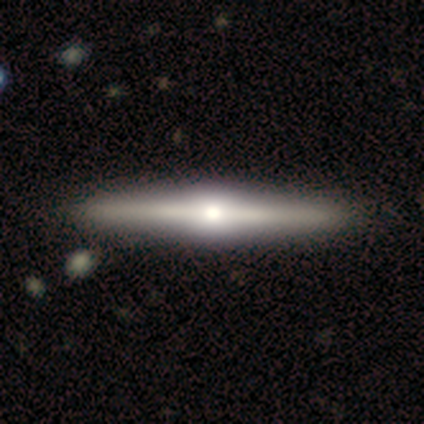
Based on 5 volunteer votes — smooth_or_featured: featured or disk (p=1.00)
disk_edge_on: yes (p=1.00)
edge_on_bulge: rounded (p=1.00)
merging: none (p=1.00)